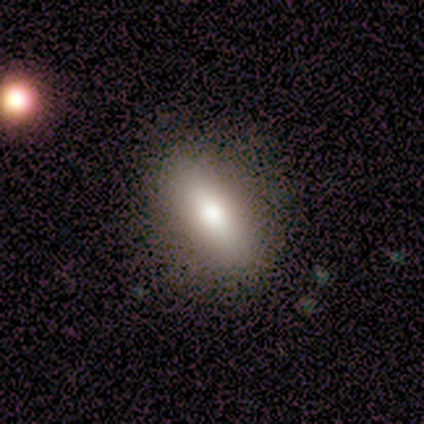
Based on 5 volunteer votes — smooth 40% (tied), featured or disk 40% (tied), star or artifact 20%. Down the decision tree: how rounded — in between (100%); merging — none (100%).